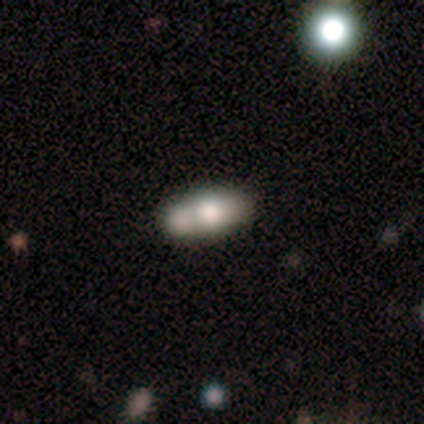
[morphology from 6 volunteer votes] Q: Smooth or featured?
A: smooth (67%); runner-up: featured or disk (33%)
Q: How rounded?
A: in between (100%)
Q: Merging?
A: merger (67%); runner-up: none (17%)